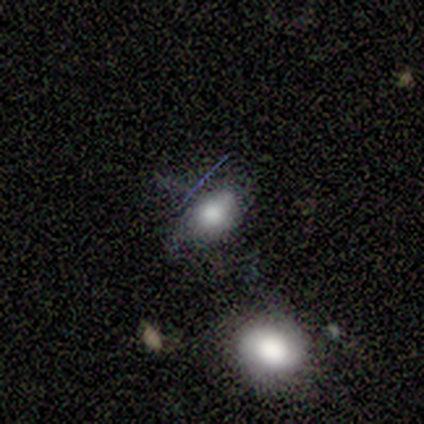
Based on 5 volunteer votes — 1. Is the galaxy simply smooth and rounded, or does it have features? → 80% smooth, 20% featured or disk, 0% star or artifact.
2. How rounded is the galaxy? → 100% in between, 0% round, 0% cigar-shaped.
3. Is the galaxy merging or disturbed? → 60% none, 20% major disturbance, 20% merger, 0% minor disturbance.